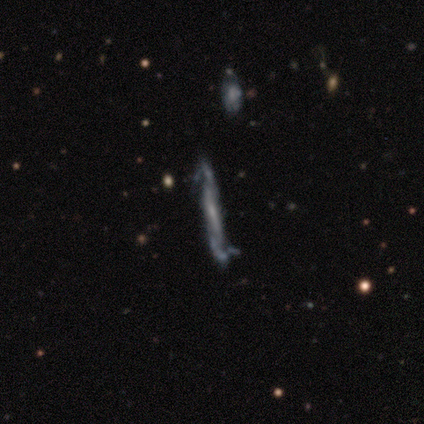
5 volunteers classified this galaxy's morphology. featured or disk 60%, smooth 40%, star or artifact 0%. Down the decision tree: edge-on disk — yes (100%); edge-on bulge — none (67%); merging — none (80%).